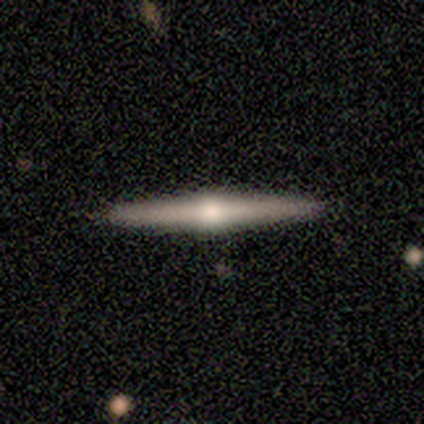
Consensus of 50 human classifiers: Morphology: type=featured or disk (74%); edge-on=yes (97%); edge-on bulge=rounded (92%); merging=none (92%).